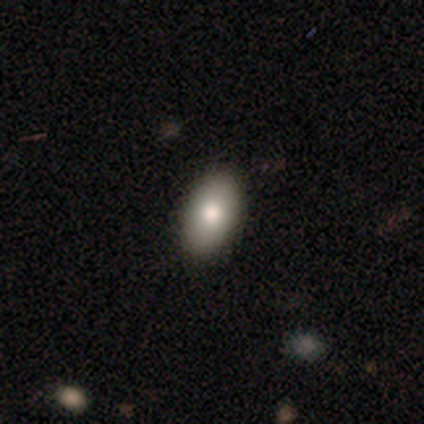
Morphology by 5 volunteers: Smooth or featured?
  - smooth: 80% *
  - featured or disk: 20%
  - star or artifact: 0%
How rounded?
  - in between: 100% *
  - round: 0%
  - cigar-shaped: 0%
Merging?
  - none: 100% *
  - minor disturbance: 0%
  - major disturbance: 0%
  - merger: 0%